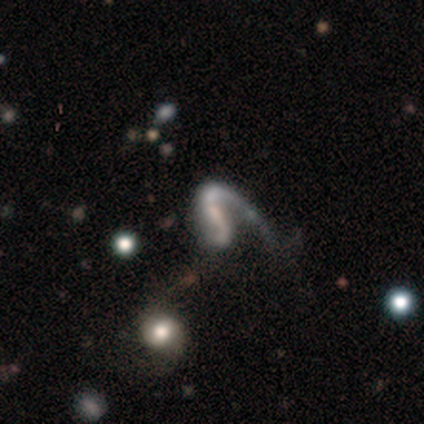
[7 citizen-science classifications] featured or disk 100%, smooth 0%, star or artifact 0%. Down the decision tree: edge-on disk — no (100%); bar — strong (43%, tied with weak); spiral arms — yes (71%); spiral arm count — 2 (60%); spiral winding — medium (80%); bulge size — small (57%); merging — major disturbance (57%).